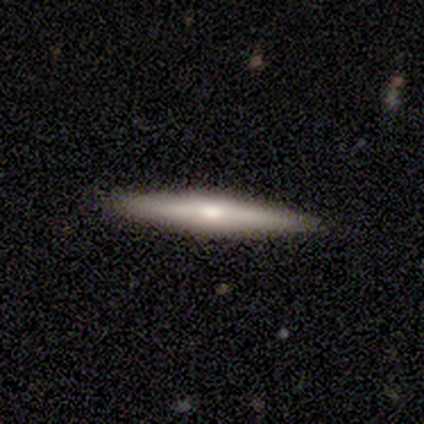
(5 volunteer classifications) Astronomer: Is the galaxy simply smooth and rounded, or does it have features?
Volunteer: smooth — 40%, tied with featured or disk at 40%.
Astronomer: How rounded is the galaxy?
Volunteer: cigar-shaped — 100%.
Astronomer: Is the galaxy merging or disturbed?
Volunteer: none — 100%.